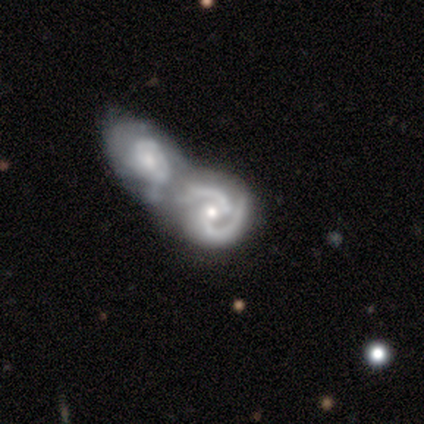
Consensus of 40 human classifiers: This is clearly a featured or disk galaxy (98%). It is clearly not viewed edge-on (100%). Bar: likely no (62%). Spiral arm pattern: clearly yes (97%). Spiral arm count: clearly 2 (95%). Spiral winding: possibly medium (47%). Central bulge: likely moderate (64%). Merging: clearly merger (90%).